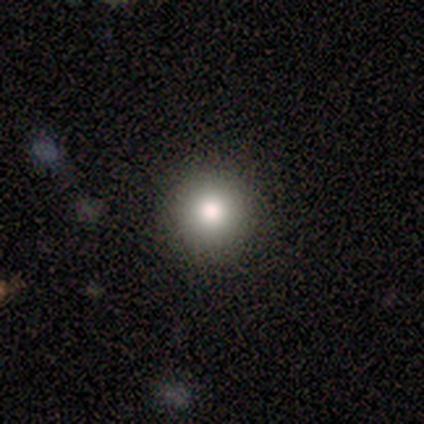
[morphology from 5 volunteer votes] Q: Smooth or featured?
A: smooth (100%)
Q: How rounded?
A: round (100%)
Q: Merging?
A: none (100%)